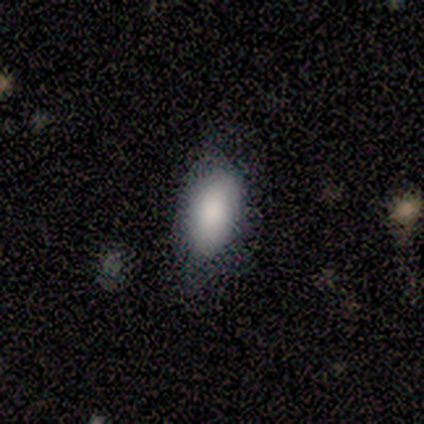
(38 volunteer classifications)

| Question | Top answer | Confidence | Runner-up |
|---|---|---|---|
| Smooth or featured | smooth | 95% | featured or disk (5%) |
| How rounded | in between | 97% | cigar-shaped (3%) |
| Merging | none | 76% | major disturbance (13%) |